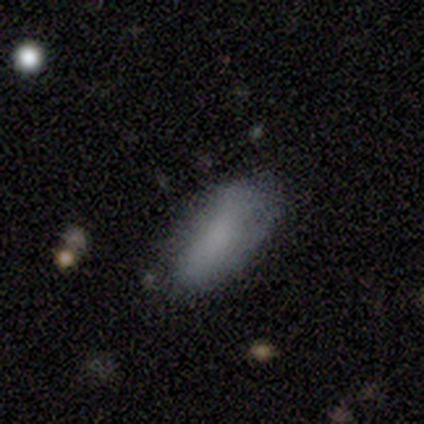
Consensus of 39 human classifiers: A smooth galaxy with no disk features (67%) that is in between round and cigar-shaped (85%). Merging: none (58%).